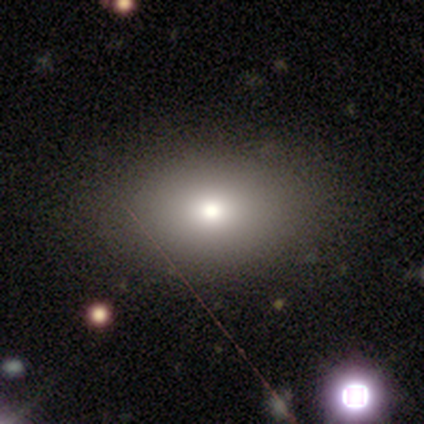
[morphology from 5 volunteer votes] This is marginally a smooth galaxy (40%, tied with star or artifact). How rounded: possibly round (50%, tied with in between). Merging: clearly none (100%).